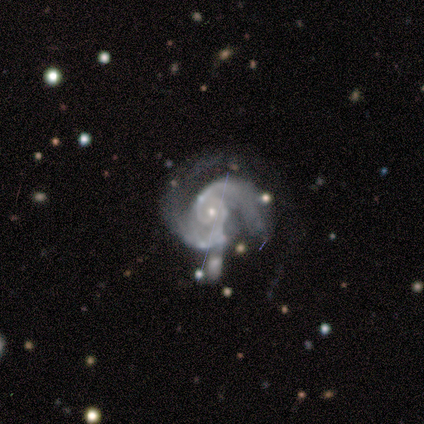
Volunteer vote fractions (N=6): A featured or disk galaxy (100%) with a weak bar (50%, tied with no), 2 (67%) medium (50%) spiral arms (100%) and a small central bulge (67%). Merging: none (33%, tied with minor disturbance).